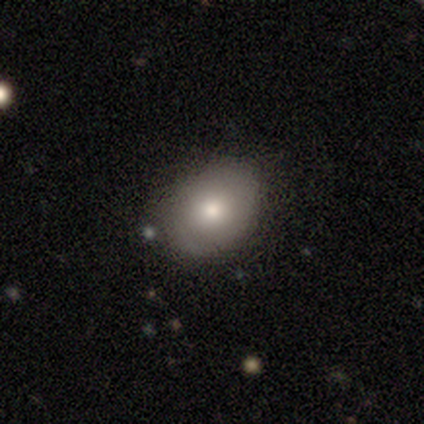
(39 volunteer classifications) Overall: smooth (72%). How rounded: in between (68%; round 32%). Merging: none (78%).